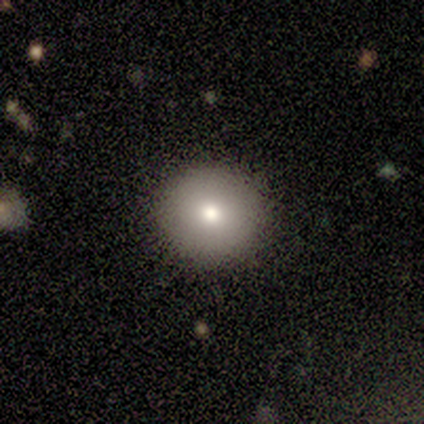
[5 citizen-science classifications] Consensus on every question: smooth or featured — smooth (100%); how rounded — round (100%); merging — none (100%).